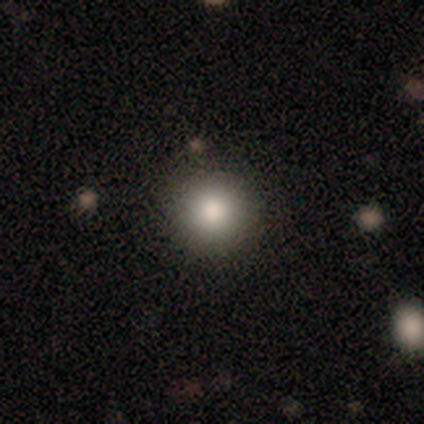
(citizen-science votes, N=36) smooth 94%, featured or disk 3%, star or artifact 3%. Down the decision tree: how rounded — round (97%); merging — none (94%).